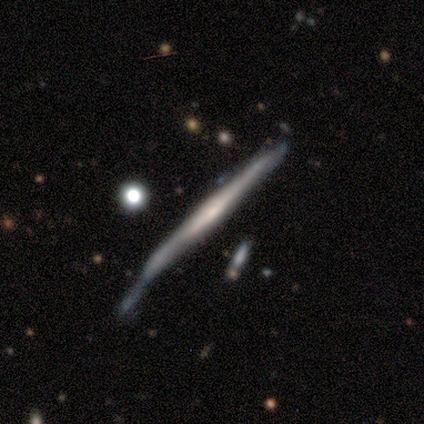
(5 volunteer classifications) Volunteers were most divided on "merging": minor disturbance: 60%, none: 40%, major disturbance: 0%, merger: 0%. More confident: smooth or featured — featured or disk (100%); edge-on disk — yes (100%); edge-on bulge — none (80%).